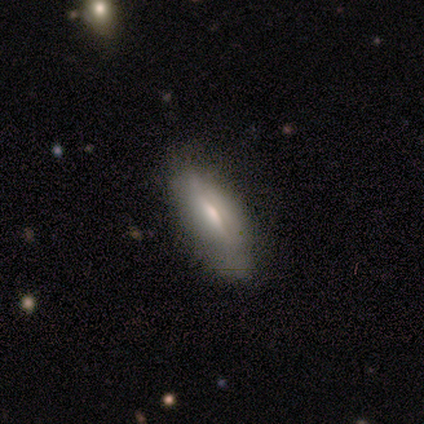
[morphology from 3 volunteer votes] Overall: featured or disk (100%). Edge-on disk: no (67%; yes 33%). Bar: strong (50%, tied with no). Spiral arms: no (100%). Bulge size: moderate (50%, tied with small). Merging: minor disturbance (67%; none 33%).